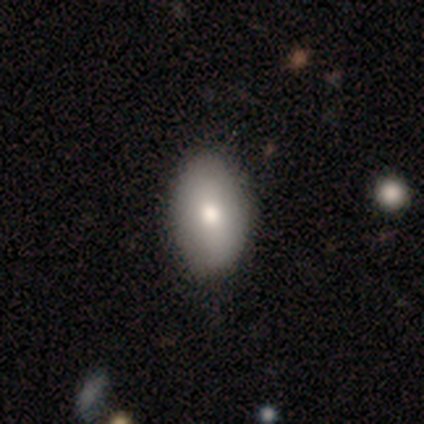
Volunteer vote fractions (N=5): This is clearly a smooth galaxy (80%). How rounded: clearly in between (100%). Merging: possibly none (50%).